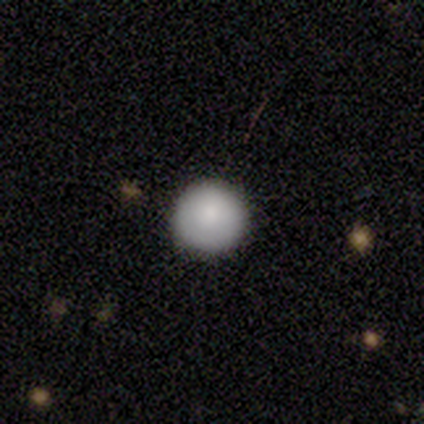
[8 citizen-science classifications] Smooth or featured: smooth — 88% (star or artifact — 12%)
How rounded: round — 100%
Merging: none — 100%